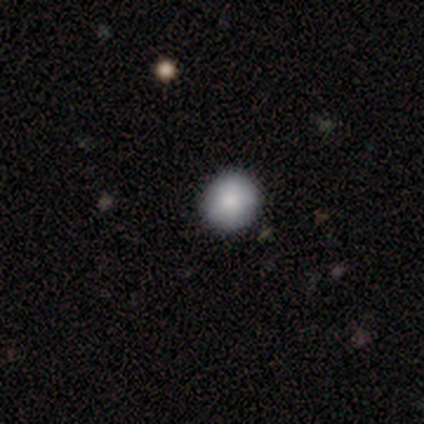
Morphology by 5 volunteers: Volunteers were most divided on "how rounded": round: 80%, in between: 20%, cigar-shaped: 0%. More confident: smooth or featured — smooth (100%); merging — none (100%).